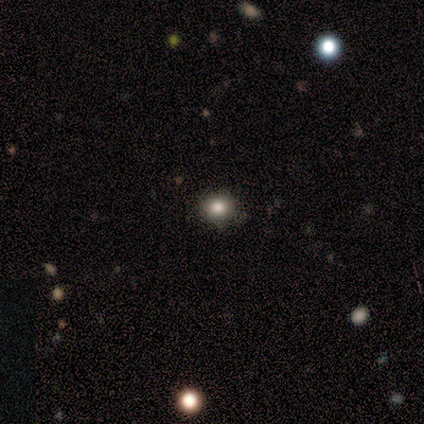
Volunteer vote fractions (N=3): smooth_or_featured: smooth (p=1.00)
how_rounded: round (p=1.00)
merging: none (p=1.00)